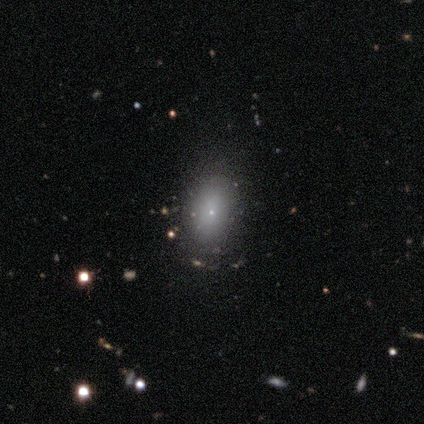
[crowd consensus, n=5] smooth-or-featured: smooth: 60% | featured or disk: 20% | star or artifact: 20%
  how-rounded: in between: 100% | round: 0% | cigar-shaped: 0%
  merging: none: 75% | minor disturbance: 25% | major disturbance: 0% | merger: 0%